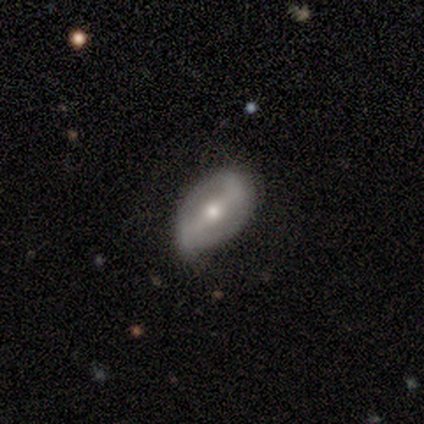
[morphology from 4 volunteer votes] Overall: featured or disk (50%; smooth 25%). Edge-on disk: no (100%). Bar: strong (100%). Spiral arms: yes (50%, tied with no). Spiral arm count: 2 (100%). Spiral winding: tight (100%). Bulge size: moderate (50%, tied with small). Merging: none (100%).